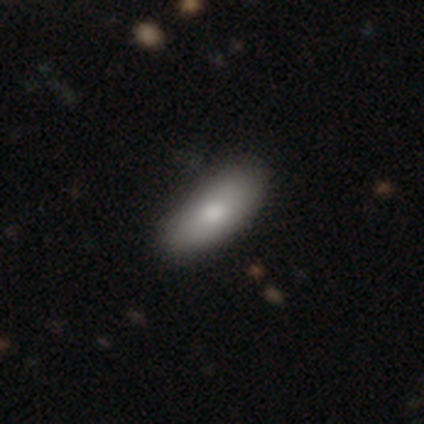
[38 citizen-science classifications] smooth 71%, featured or disk 26%, star or artifact 3%. Down the decision tree: how rounded — in between (74%); merging — none (51%).